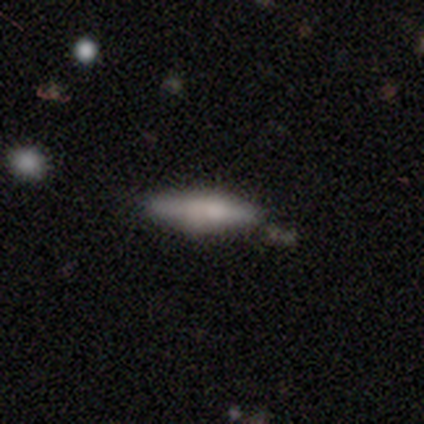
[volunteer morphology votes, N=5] A smooth galaxy with no disk features (100%) that is in between round and cigar-shaped (80%). Merging: none (60%).